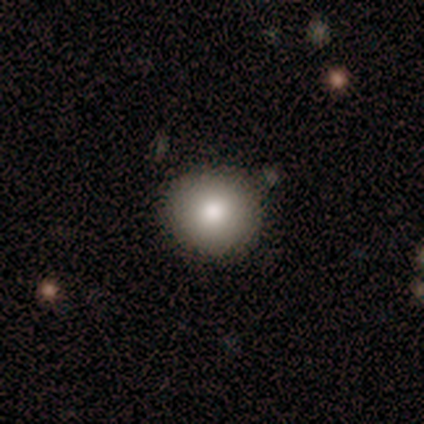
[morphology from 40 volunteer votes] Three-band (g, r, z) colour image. It shows a smooth galaxy with no disk features (82%) that is round (97%). Merging: none (87%).